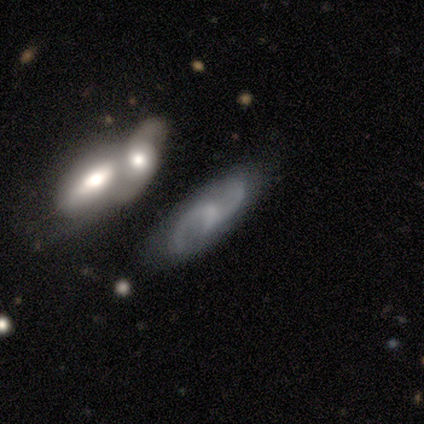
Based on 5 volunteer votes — Smooth or featured? featured or disk (100%)
Edge-on disk? no (100%)
Bar? weak (60%)
Spiral arms? yes (100%)
Spiral winding? medium (60%)
Spiral arm count? 2 (100%)
Bulge size? small (40%, tied with none)
Merging? none (80%)